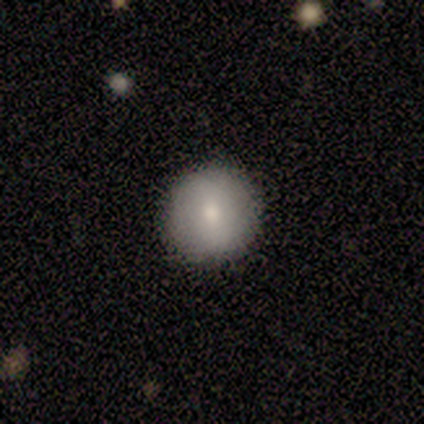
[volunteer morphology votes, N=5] A smooth galaxy with no disk features (80%) that is round (100%). Merging: none (100%).